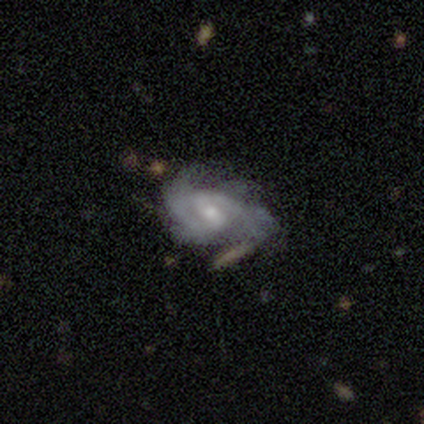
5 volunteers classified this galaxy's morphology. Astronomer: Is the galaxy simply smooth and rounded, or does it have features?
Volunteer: featured or disk — 100%.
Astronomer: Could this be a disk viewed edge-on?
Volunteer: no — 100%.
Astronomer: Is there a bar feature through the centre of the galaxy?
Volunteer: weak — 80%.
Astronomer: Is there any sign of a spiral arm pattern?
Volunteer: yes — 100%.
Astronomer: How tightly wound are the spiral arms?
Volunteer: medium — 60% (runner-up: tight, 40%).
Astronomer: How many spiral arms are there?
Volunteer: can't tell — 60% (runner-up: 2, 40%).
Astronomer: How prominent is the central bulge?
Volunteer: moderate — 80%.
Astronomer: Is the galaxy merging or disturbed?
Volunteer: none — 80%.